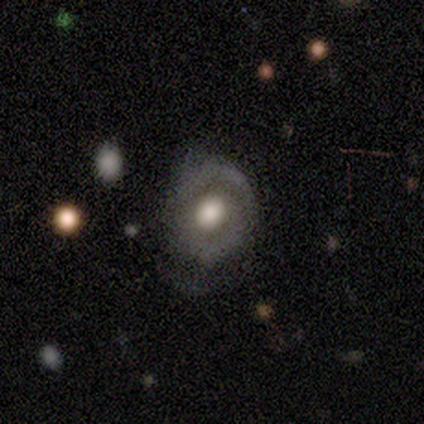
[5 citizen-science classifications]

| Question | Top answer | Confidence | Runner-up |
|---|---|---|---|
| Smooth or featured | featured or disk | 80% | smooth (20%) |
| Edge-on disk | no | 100% | — |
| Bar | no | 100% | — |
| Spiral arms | no | 100% | — |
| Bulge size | large | 50% | tied: moderate (50%) |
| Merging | minor disturbance | 60% | none (40%) |